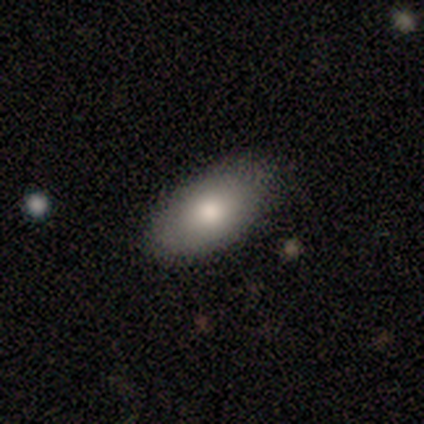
This is likely a smooth galaxy (67%). How rounded: clearly in between (100%). Merging: clearly none (89%).